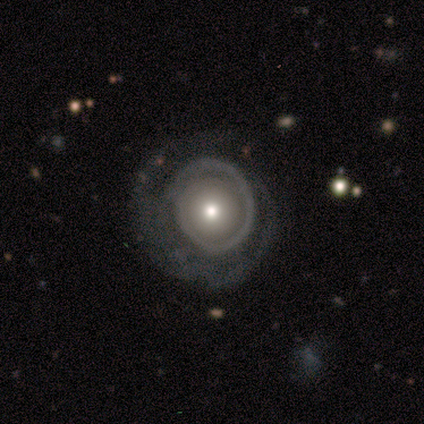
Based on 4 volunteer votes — A featured or disk galaxy (75%) with no bar (100%), 2 (50%, tied with can't tell) tight (100%) spiral arms (67%) and a large central bulge (33%, tied with moderate and small). Merging: none (50%).